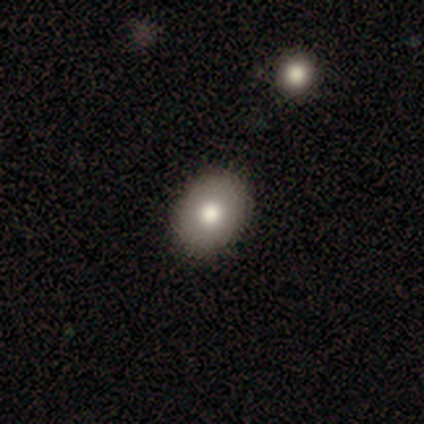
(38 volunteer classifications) A smooth galaxy with no disk features (84%) that is in between round and cigar-shaped (69%). Merging: none (73%).